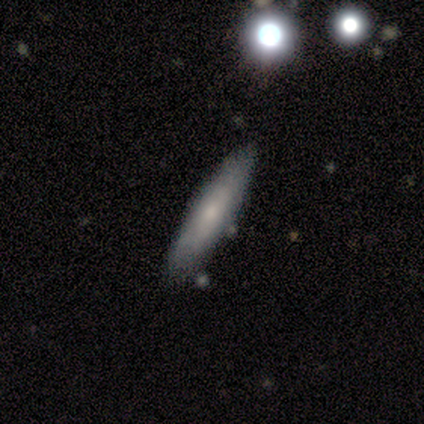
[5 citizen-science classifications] Smooth or featured? 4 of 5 (80%) said smooth. How rounded? 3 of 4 (75%) said cigar-shaped. Merging? 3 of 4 (75%) said none.